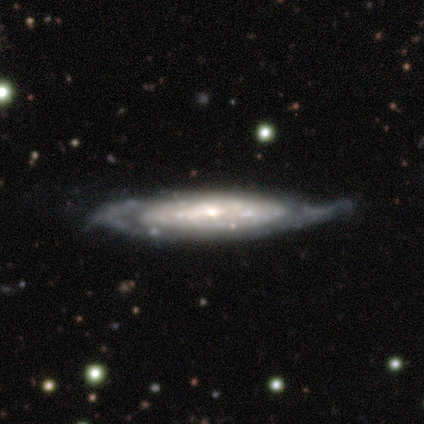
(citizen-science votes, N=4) Morphology: type=featured or disk (100%); edge-on=yes (50%, tied with no); edge-on bulge=rounded (100%); merging=minor disturbance (75%).